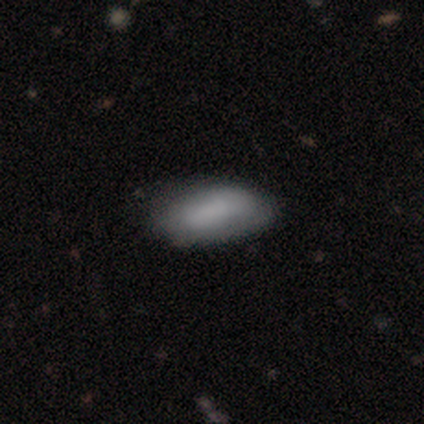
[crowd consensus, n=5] A smooth galaxy with no disk features (80%) that is in between round and cigar-shaped (75%). Merging: none (80%).